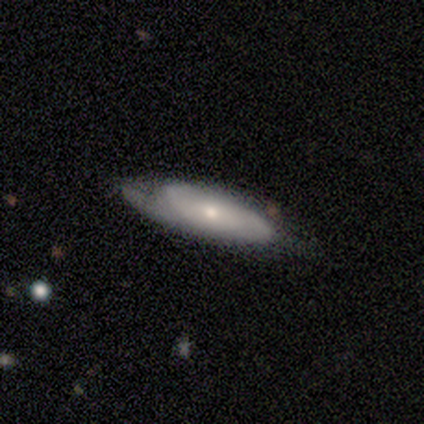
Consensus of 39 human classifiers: smooth-or-featured: featured or disk: 56% | smooth: 36% | star or artifact: 8%
  disk-edge-on: no: 82% | yes: 18%
    bar: no: 78% | weak: 22% | strong: 0%
    has-spiral-arms: yes: 94% | no: 6%
      spiral-winding: tight: 41% | loose: 35% | medium: 24%
      spiral-arm-count: can't tell: 53% | 2: 35% | 1: 12% | 3: 0% | 4: 0% | more than 4: 0%
    bulge-size: small: 50% | moderate: 44% | large: 6% | dominant: 0% | none: 0%
  merging: none: 64% | minor disturbance: 19% | major disturbance: 17% | merger: 0%